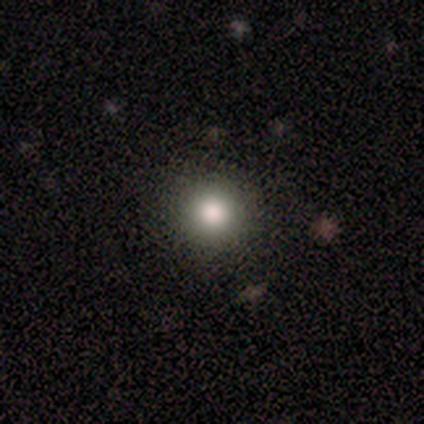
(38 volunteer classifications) This is likely a smooth galaxy (79%). How rounded: clearly round (97%). Merging: clearly none (91%).